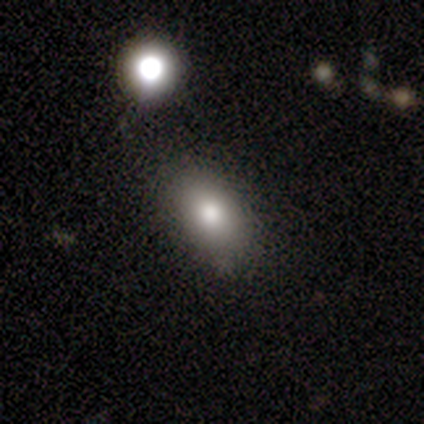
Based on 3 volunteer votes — smooth 67%, star or artifact 33%, featured or disk 0%. Down the decision tree: how rounded — in between (100%); merging — none (50%, tied with minor disturbance).